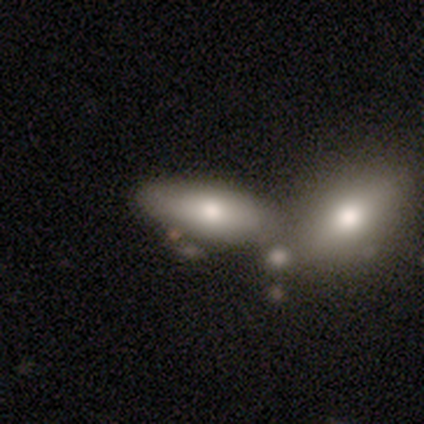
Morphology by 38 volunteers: Smooth or featured: smooth — 84% (featured or disk — 16%)
How rounded: in between — 91% (cigar-shaped — 9%)
Merging: merger — 61% (none — 16%)